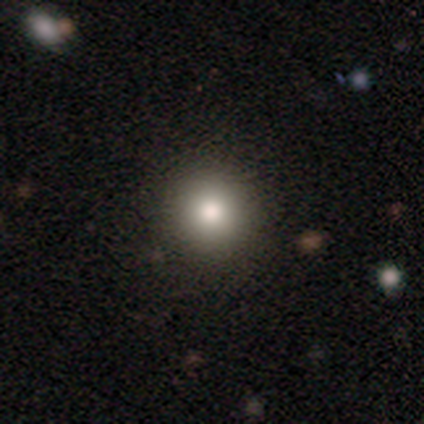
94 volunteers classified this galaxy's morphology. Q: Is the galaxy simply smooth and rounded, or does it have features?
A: smooth — 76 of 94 (81%).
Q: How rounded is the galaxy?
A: round — 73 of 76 (96%).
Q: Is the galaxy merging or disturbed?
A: none — 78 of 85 (92%).